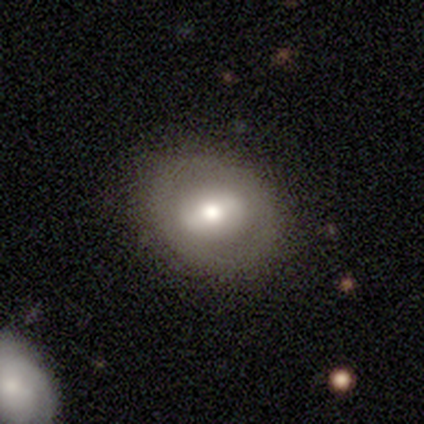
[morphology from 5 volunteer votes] Smooth or featured? featured or disk (60%)
Edge-on disk? no (100%)
Bar? strong (67%)
Spiral arms? no (67%)
Bulge size? moderate (100%)
Merging? none (80%)